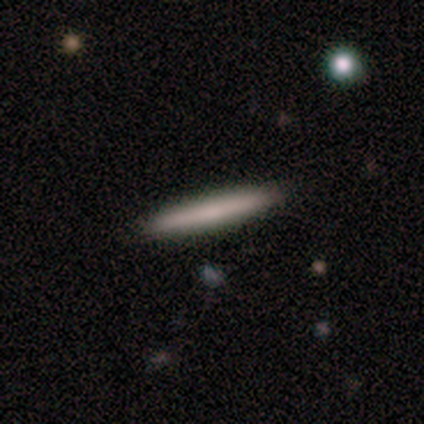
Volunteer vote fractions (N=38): Smooth or featured? 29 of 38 (76%) said smooth. How rounded? 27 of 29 (93%) said cigar-shaped. Merging? 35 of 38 (92%) said none.